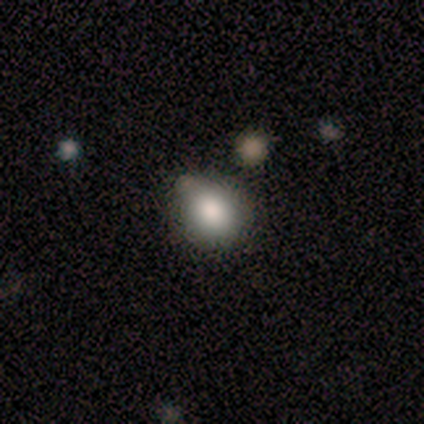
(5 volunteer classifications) Smooth or featured: smooth — 100%
How rounded: round — 80% (in between — 20%)
Merging: none — 60% (minor disturbance — 40%)